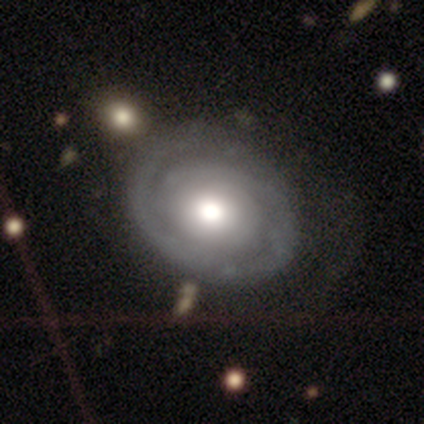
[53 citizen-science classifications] Volunteers were most divided on "spiral arm count": 2: 35%, can't tell: 32%, 1: 29%, 3: 3%, 4: 0%, more than 4: 0%. More confident: edge-on disk — no (98%); bar — no (95%); spiral winding — tight (87%); spiral arms — yes (78%); smooth or featured — featured or disk (77%); merging — none (76%); bulge size — large (52%).